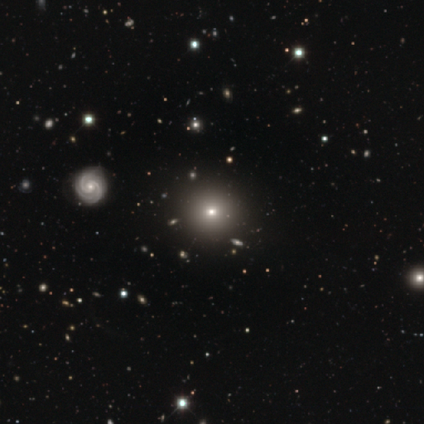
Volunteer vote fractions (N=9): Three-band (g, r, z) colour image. It shows a smooth galaxy with no disk features (44%) that is round (100%). Merging: none (83%).